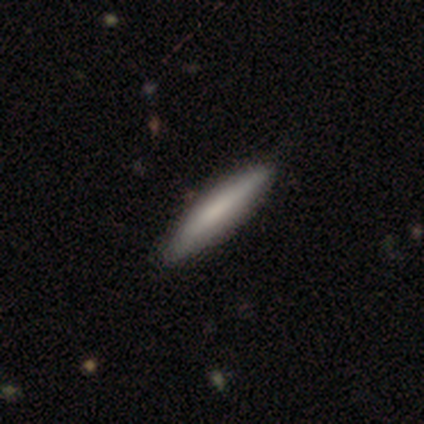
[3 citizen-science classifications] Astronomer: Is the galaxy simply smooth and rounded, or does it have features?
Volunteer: featured or disk — 67%.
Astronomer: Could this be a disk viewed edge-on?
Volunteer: yes — 50%, tied with no at 50%.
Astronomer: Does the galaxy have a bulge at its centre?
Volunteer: boxy — 100%.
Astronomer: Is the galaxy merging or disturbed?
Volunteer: none — 100%.